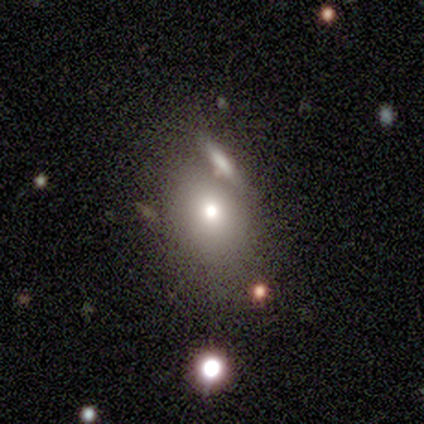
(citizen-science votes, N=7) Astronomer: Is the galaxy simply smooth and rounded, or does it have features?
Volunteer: smooth — 71%.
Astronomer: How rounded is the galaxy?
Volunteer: round — 60% (runner-up: in between, 40%).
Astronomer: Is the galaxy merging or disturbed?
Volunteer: none — 83%.